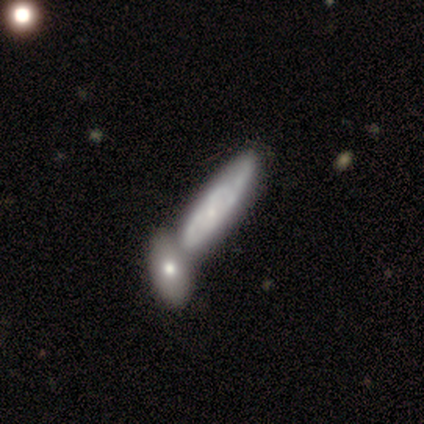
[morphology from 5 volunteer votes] smooth_or_featured: featured or disk (p=0.80) [alt: smooth p=0.20]
disk_edge_on: yes (p=0.50) [tied with: no p=0.50]
edge_on_bulge: none (p=0.50) [tied with: rounded p=0.50]
merging: merger (p=0.60) [alt: none p=0.20]